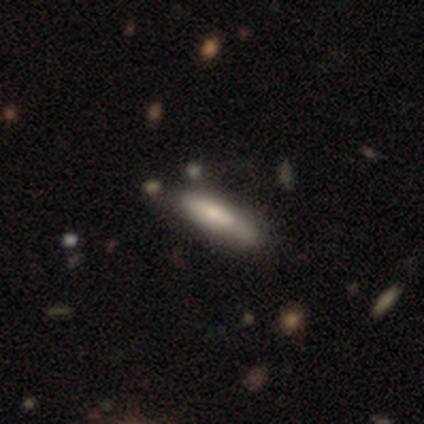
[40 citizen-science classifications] smooth_or_featured: smooth (p=0.78) [alt: featured or disk p=0.23]
how_rounded: cigar-shaped (p=0.71) [alt: in between p=0.29]
merging: none (p=0.53) [alt: minor disturbance p=0.17]